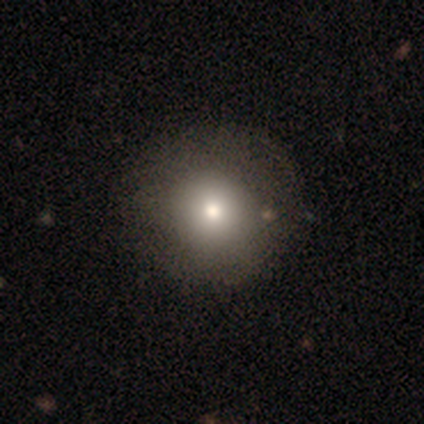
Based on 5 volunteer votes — A smooth galaxy with no disk features (80%) that is round (75%).

Vote fractions:
- Smooth or featured? smooth: 80% / star or artifact: 20% / featured or disk: 0%
- How rounded? round: 75% / in between: 25% / cigar-shaped: 0%
- Merging? none: 75% / minor disturbance: 25% / major disturbance: 0% / merger: 0%